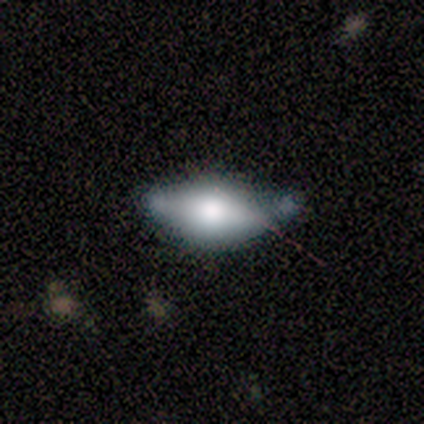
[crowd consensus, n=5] smooth-or-featured: smooth: 100% | featured or disk: 0% | star or artifact: 0%
  how-rounded: in between: 100% | round: 0% | cigar-shaped: 0%
  merging: none: 40% (tied) | minor disturbance: 40% (tied) | merger: 20% | major disturbance: 0%